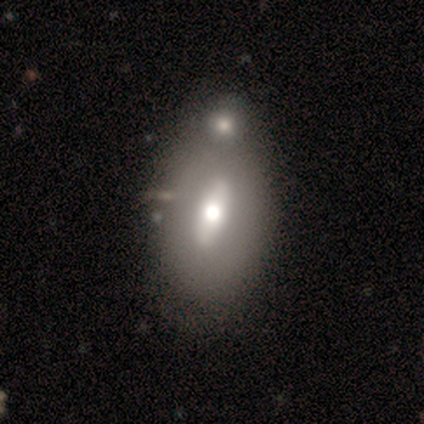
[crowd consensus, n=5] Smooth or featured?
  - featured or disk: 60% *
  - smooth: 40%
  - star or artifact: 0%
Edge-on disk?
  - no: 100% *
  - yes: 0%
Bar?
  - strong: 67% *
  - weak: 33%
  - no: 0%
Spiral arms?
  - no: 100% *
  - yes: 0%
Bulge size?
  - moderate: 67% *
  - dominant: 33%
  - large: 0%
  - small: 0%
  - none: 0%
Merging?
  - none: 40% *
  - minor disturbance: 20%
  - major disturbance: 20%
  - merger: 20%